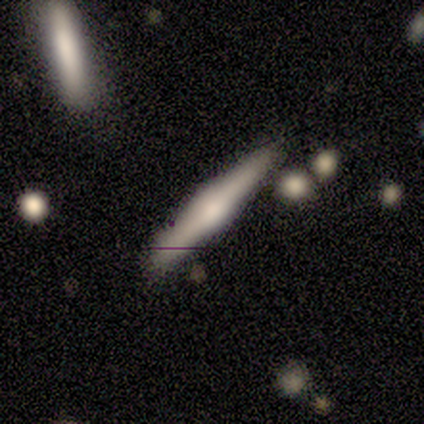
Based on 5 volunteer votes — Q: Smooth or featured?
A: featured or disk (80%); runner-up: smooth (20%)
Q: Edge-on disk?
A: yes (100%)
Q: Edge-on bulge?
A: rounded (100%)
Q: Merging?
A: none (40%); tied with: minor disturbance (40%)